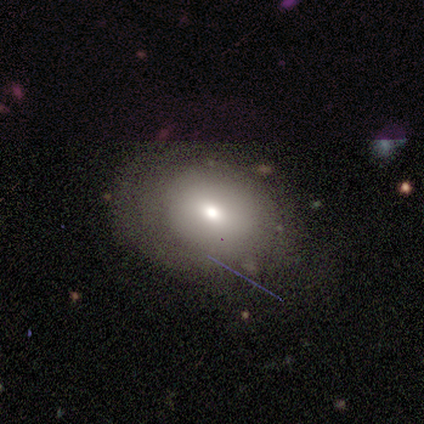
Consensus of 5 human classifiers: smooth_or_featured: featured or disk (p=0.60) [alt: smooth p=0.40]
disk_edge_on: no (p=1.00)
bar: no (p=1.00)
has_spiral_arms: no (p=1.00)
bulge_size: moderate (p=1.00)
merging: none (p=0.60) [alt: minor disturbance p=0.20]